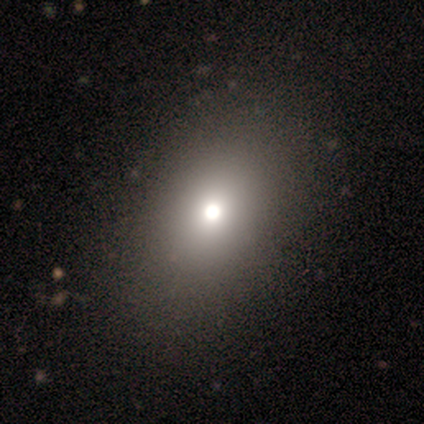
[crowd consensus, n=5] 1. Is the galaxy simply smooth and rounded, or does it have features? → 80% smooth, 20% star or artifact, 0% featured or disk.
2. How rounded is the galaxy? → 100% in between, 0% round, 0% cigar-shaped.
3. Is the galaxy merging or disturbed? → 100% none, 0% minor disturbance, 0% major disturbance, 0% merger.